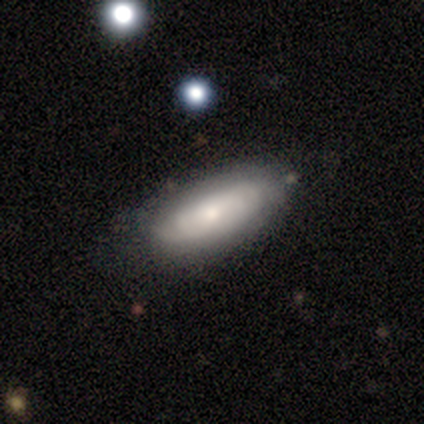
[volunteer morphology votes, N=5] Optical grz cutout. It shows a smooth galaxy with no disk features (80%) that is in between round and cigar-shaped (100%). Merging: none (50%).